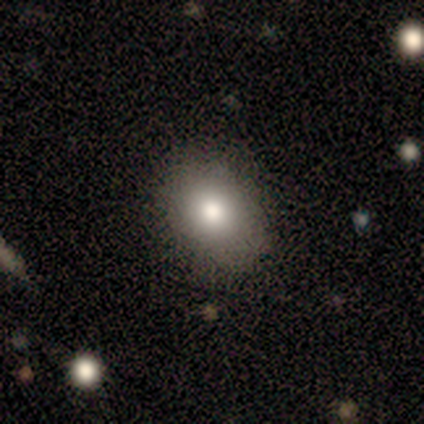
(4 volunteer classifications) Smooth or featured: smooth — 75% (featured or disk — 25%)
How rounded: round — 67% (in between — 33%)
Merging: none — 75% (minor disturbance — 25%)